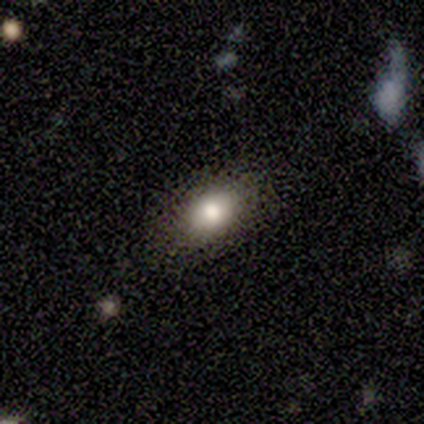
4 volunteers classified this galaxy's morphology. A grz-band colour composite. It shows a smooth galaxy with no disk features (50%) that is in between round and cigar-shaped (100%). Merging: none (100%).